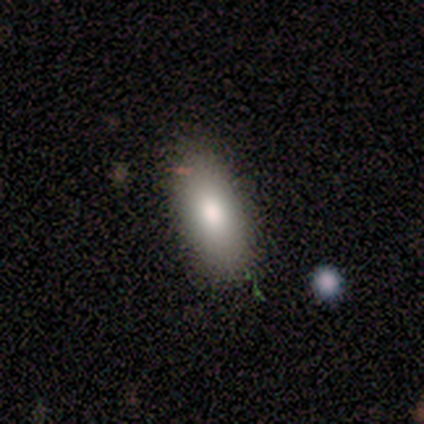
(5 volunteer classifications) Overall: smooth (80%). How rounded: in between (100%). Merging: none (100%).